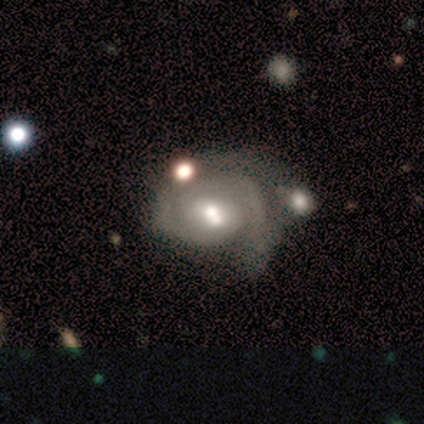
A featured or disk galaxy (60%) with no bar (67%), 2 (100%) medium (100%) spiral arms (100%) and a moderate central bulge (100%). Merging: none (40%).